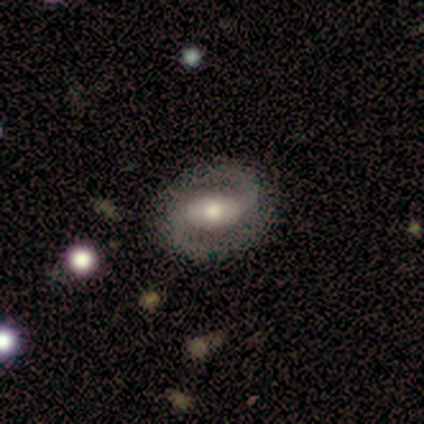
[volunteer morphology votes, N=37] Volunteers were most divided on "bar": weak: 52%, strong: 38%, no: 10%. More confident: spiral arm count — 2 (100%); edge-on disk — no (97%); spiral arms — yes (93%); smooth or featured — featured or disk (81%); merging — none (80%); bulge size — moderate (72%); spiral winding — medium (52%).